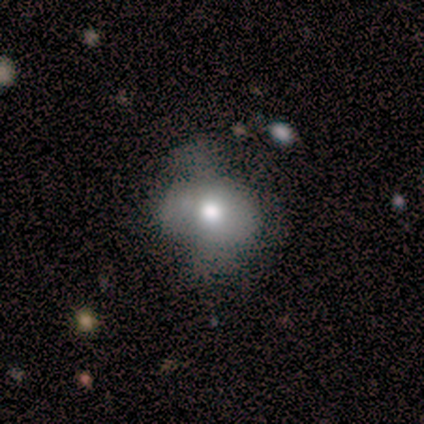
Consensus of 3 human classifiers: Q: Smooth or featured?
A: smooth (100%)
Q: How rounded?
A: in between (67%); runner-up: round (33%)
Q: Merging?
A: none (67%); runner-up: major disturbance (33%)